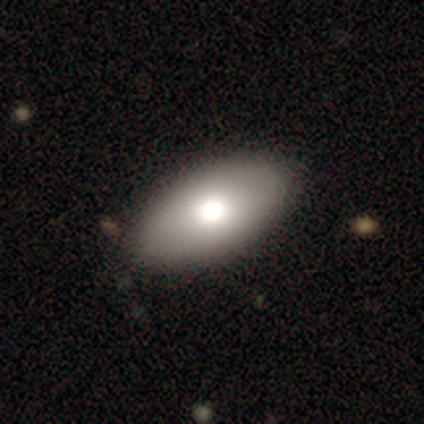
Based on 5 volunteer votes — This appears to be a smooth galaxy with no disk features (80%) that is in between round and cigar-shaped (100%). Merging: none (75%).